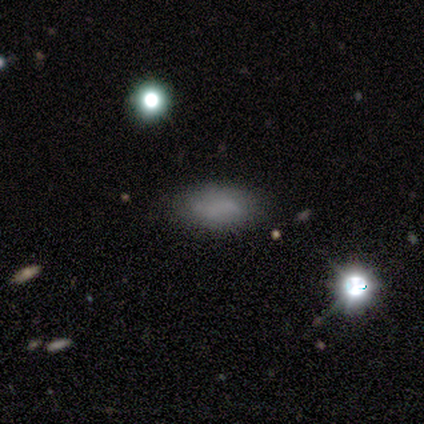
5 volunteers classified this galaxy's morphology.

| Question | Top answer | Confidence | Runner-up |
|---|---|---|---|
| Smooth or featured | smooth | 80% | star or artifact (20%) |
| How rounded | in between | 75% | round (25%) |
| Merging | none | 100% | — |